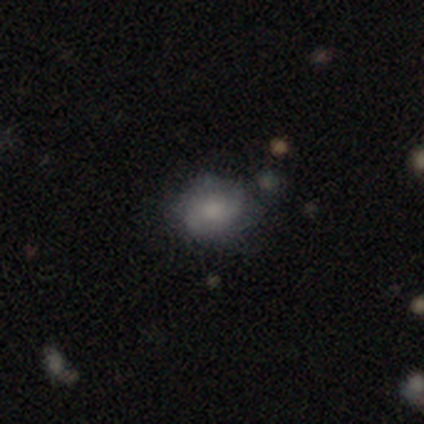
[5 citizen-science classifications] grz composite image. It shows a smooth galaxy with no disk features (40%, tied with featured or disk) that is round (50%, tied with in between). Merging: minor disturbance (50%).